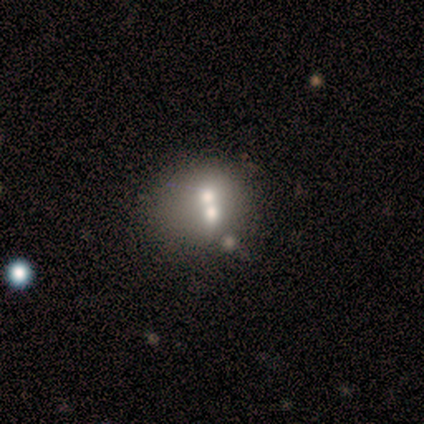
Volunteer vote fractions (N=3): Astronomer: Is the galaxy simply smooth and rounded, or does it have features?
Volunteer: smooth — 100%.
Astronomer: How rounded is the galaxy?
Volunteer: round — 67%.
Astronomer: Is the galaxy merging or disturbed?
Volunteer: merger — 67%.